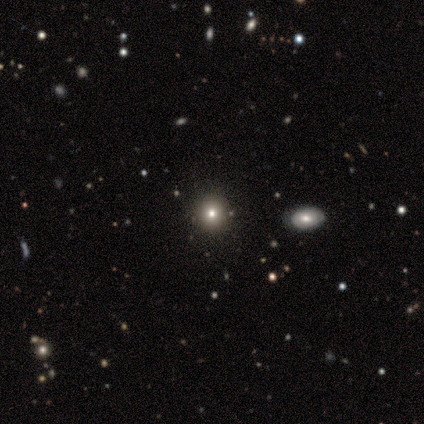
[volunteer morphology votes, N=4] type=smooth (50%); roundness=round (100%); merging=none (100%).